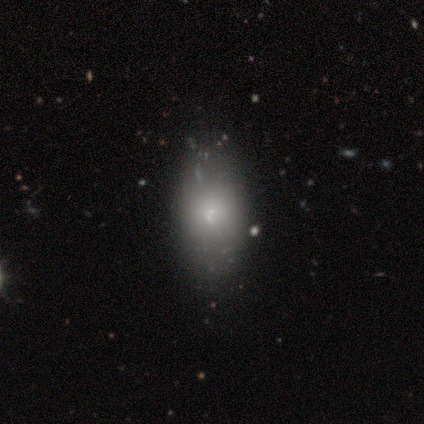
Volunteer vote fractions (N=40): smooth_or_featured: smooth (p=0.88) [alt: featured or disk p=0.10]
how_rounded: in between (p=0.91) [alt: cigar-shaped p=0.09]
merging: none (p=0.64) [alt: minor disturbance p=0.05]